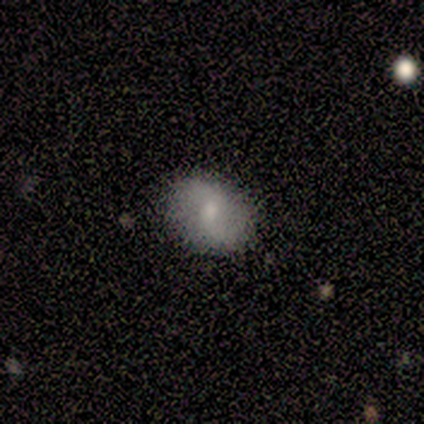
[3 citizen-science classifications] Overall: smooth (67%; featured or disk 33%). How rounded: round (50%, tied with in between). Merging: none (100%).